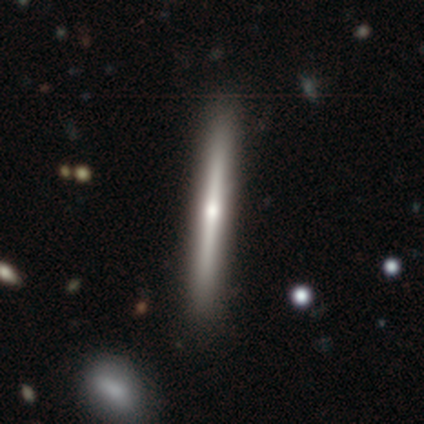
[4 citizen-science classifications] A featured or disk galaxy (75%) viewed edge-on (100%) with a rounded central bulge (100%).

Vote fractions:
- Smooth or featured? featured or disk: 75% / smooth: 25% / star or artifact: 0%
- Edge-on disk? yes: 100% / no: 0%
- Edge-on bulge? rounded: 100% / boxy: 0% / none: 0%
- Merging? none: 100% / minor disturbance: 0% / major disturbance: 0% / merger: 0%